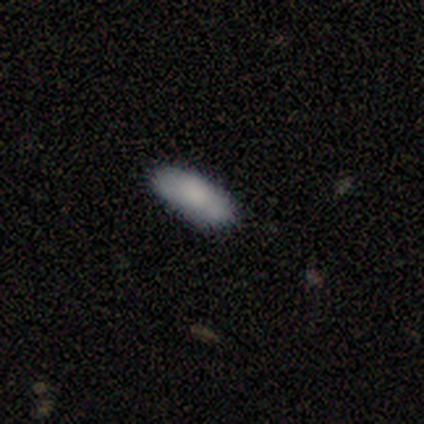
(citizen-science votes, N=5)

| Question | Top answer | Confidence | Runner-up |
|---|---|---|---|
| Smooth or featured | smooth | 60% | featured or disk (20%) |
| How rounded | in between | 100% | — |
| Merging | none | 75% | major disturbance (25%) |